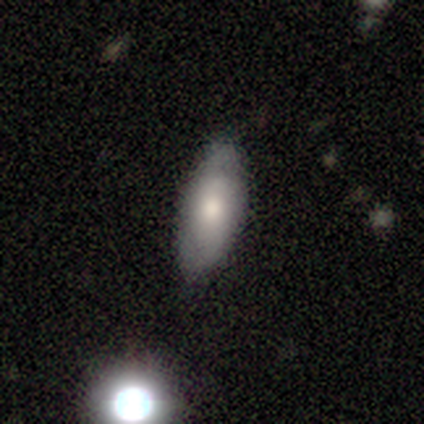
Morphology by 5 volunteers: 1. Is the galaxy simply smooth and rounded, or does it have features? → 100% smooth, 0% featured or disk, 0% star or artifact.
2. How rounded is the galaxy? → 100% in between, 0% round, 0% cigar-shaped.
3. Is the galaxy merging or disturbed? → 80% none, 20% minor disturbance, 0% major disturbance, 0% merger.